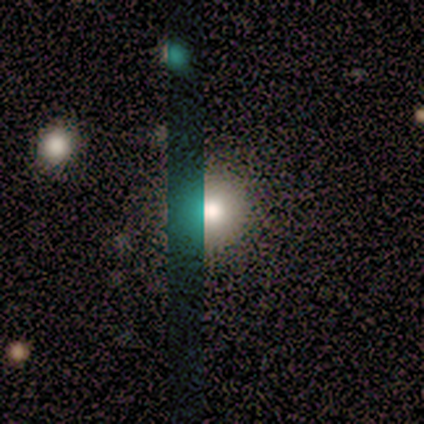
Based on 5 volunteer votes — Smooth or featured?
  - smooth: 80% *
  - star or artifact: 20%
  - featured or disk: 0%
How rounded?
  - round: 100% *
  - in between: 0%
  - cigar-shaped: 0%
Merging?
  - none: 100% *
  - minor disturbance: 0%
  - major disturbance: 0%
  - merger: 0%